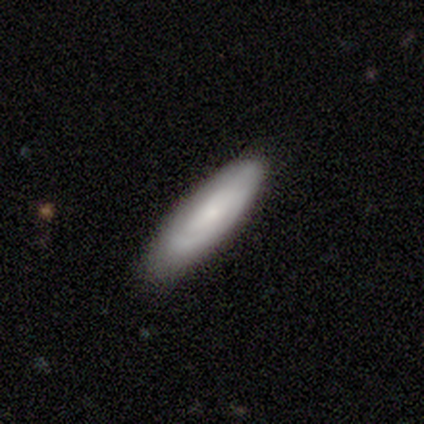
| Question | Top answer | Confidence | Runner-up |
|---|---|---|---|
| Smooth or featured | smooth | 54% | featured or disk (46%) |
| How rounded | cigar-shaped | 67% | in between (29%) |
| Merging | none | 79% | minor disturbance (21%) |